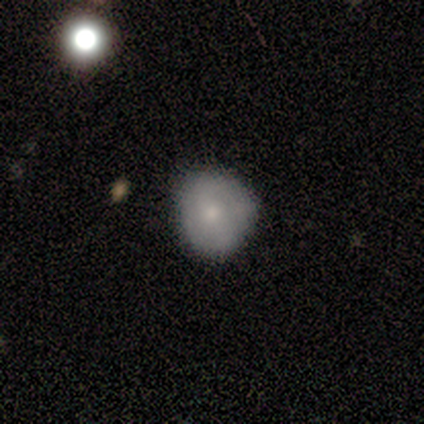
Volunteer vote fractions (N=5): A smooth galaxy with no disk features (100%) that is round (80%).

Vote fractions:
- Smooth or featured? smooth: 100% / featured or disk: 0% / star or artifact: 0%
- How rounded? round: 80% / in between: 20% / cigar-shaped: 0%
- Merging? minor disturbance: 60% / none: 40% / major disturbance: 0% / merger: 0%